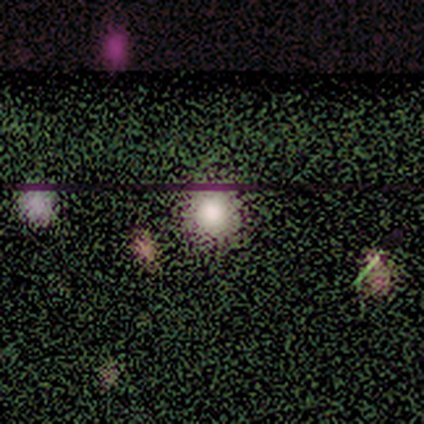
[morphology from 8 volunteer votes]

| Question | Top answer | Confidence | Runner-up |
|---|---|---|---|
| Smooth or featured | smooth | 50% | star or artifact (38%) |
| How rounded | round | 100% | — |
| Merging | none | 100% | — |